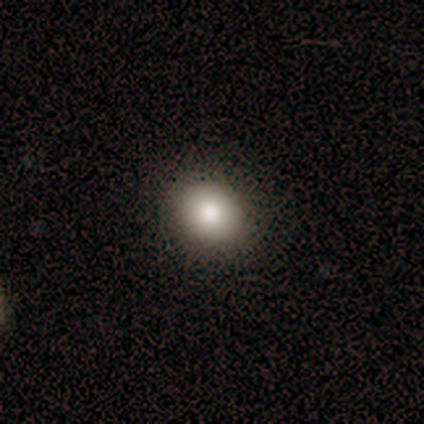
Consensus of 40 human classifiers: A smooth galaxy with no disk features (92%) that is round (81%).

Vote fractions:
- Smooth or featured? smooth: 92% / featured or disk: 8% / star or artifact: 0%
- How rounded? round: 81% / in between: 19% / cigar-shaped: 0%
- Merging? none: 98% / major disturbance: 2% / minor disturbance: 0% / merger: 0%